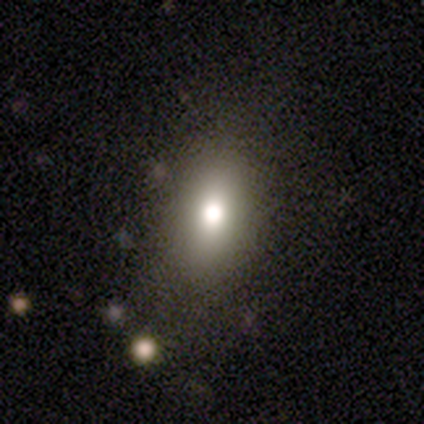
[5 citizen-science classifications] Smooth or featured?
  - smooth: 60% *
  - star or artifact: 40%
  - featured or disk: 0%
How rounded?
  - in between: 67% *
  - round: 33%
  - cigar-shaped: 0%
Merging?
  - none: 100% *
  - minor disturbance: 0%
  - major disturbance: 0%
  - merger: 0%